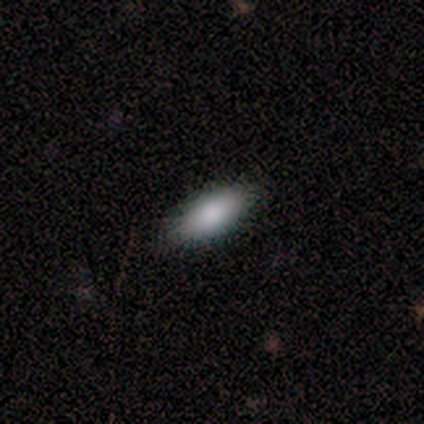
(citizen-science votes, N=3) Morphology: type=smooth (33%, tied with featured or disk and star or artifact); roundness=in between (100%); merging=none (100%).